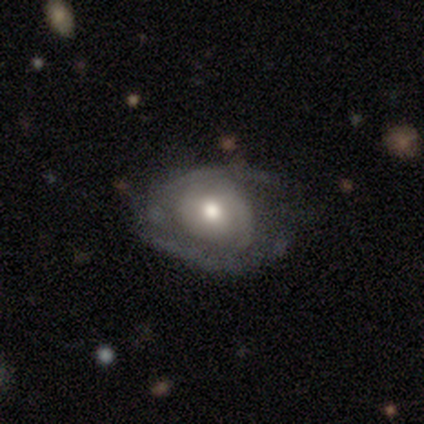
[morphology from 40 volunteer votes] Volunteers were most divided on "merging": none: 41%, minor disturbance: 38%, major disturbance: 19%, merger: 3%. Remaining: edge-on disk — no (96%); bar — no (77%); bulge size — moderate (68%); spiral winding — tight (58%); smooth or featured — featured or disk (57%); spiral arms — yes (55%); spiral arm count — can't tell (42%).